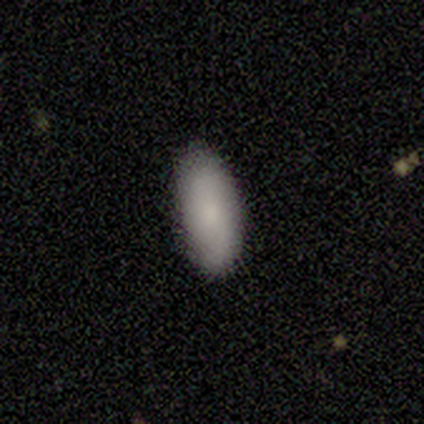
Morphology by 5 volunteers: Smooth or featured?
  - smooth: 100% *
  - featured or disk: 0%
  - star or artifact: 0%
How rounded?
  - in between: 100% *
  - round: 0%
  - cigar-shaped: 0%
Merging?
  - none: 100% *
  - minor disturbance: 0%
  - major disturbance: 0%
  - merger: 0%